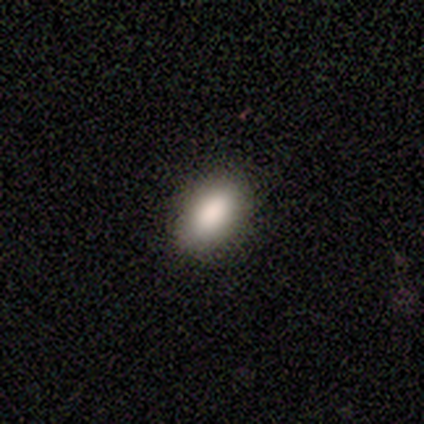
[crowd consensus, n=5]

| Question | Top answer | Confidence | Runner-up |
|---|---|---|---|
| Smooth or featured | smooth | 80% | star or artifact (20%) |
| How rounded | in between | 100% | — |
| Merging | none | 100% | — |